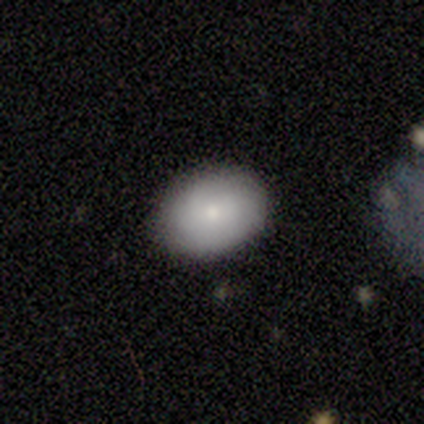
Morphology: type=smooth (80%); roundness=in between (75%); merging=none (80%).